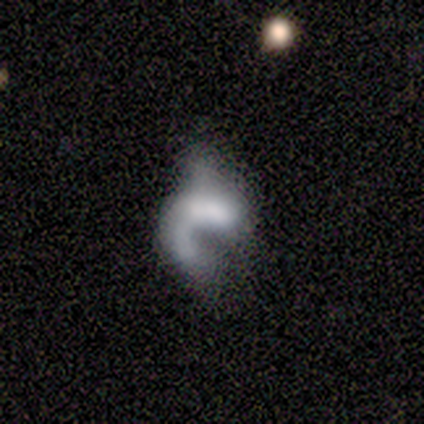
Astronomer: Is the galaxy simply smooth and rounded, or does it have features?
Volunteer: smooth — 40%, tied with featured or disk at 40%.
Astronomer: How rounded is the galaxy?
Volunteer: in between — 100%.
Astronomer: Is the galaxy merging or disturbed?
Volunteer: major disturbance — 100%.